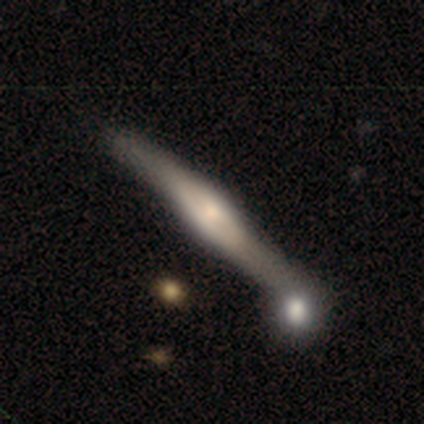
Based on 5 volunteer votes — smooth-or-featured: featured or disk: 80% | star or artifact: 20% | smooth: 0%
  disk-edge-on: yes: 100% | no: 0%
    edge-on-bulge: boxy: 50% (tied) | rounded: 50% (tied) | none: 0%
  merging: minor disturbance: 50% (tied) | merger: 50% (tied) | none: 0% | major disturbance: 0%